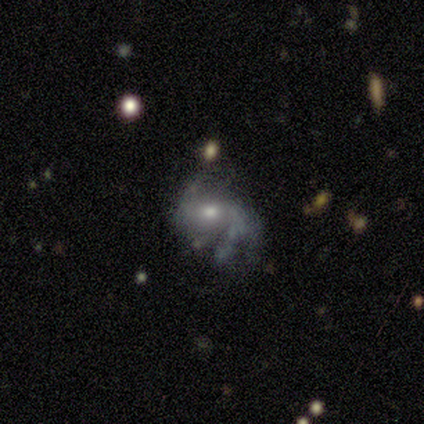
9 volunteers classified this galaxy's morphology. featured or disk 44%, star or artifact 33%, smooth 22%. Down the decision tree: edge-on disk — no (100%); bar — weak (50%); spiral arms — yes (100%); spiral arm count — can't tell (50%); spiral winding — loose (75%); bulge size — small (100%); merging — none (50%).